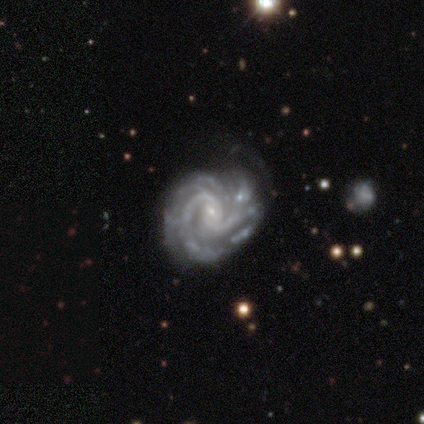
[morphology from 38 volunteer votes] smooth_or_featured: featured or disk (p=0.87) [alt: star or artifact p=0.11]
disk_edge_on: no (p=0.97) [alt: yes p=0.03]
bar: no (p=0.56) [alt: weak p=0.41]
has_spiral_arms: yes (p=0.97) [alt: no p=0.03]
spiral_winding: tight (p=0.58) [alt: medium p=0.39]
spiral_arm_count: 2 (p=0.42) [alt: can't tell p=0.29]
bulge_size: small (p=0.81) [alt: moderate p=0.12]
merging: none (p=0.47) [alt: minor disturbance p=0.41]